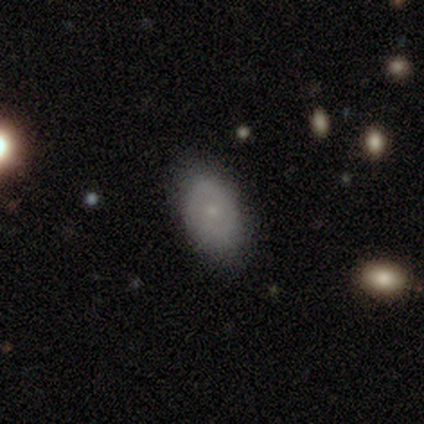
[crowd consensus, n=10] This appears to be a smooth galaxy with no disk features (70%) that is in between round and cigar-shaped (100%). Merging: none (70%).